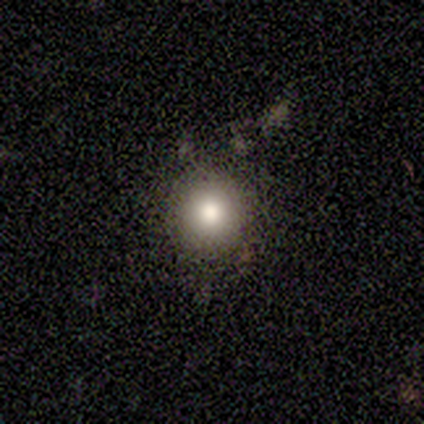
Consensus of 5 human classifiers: smooth-or-featured: smooth: 80% | star or artifact: 20% | featured or disk: 0%
  how-rounded: round: 75% | in between: 25% | cigar-shaped: 0%
  merging: none: 75% | minor disturbance: 25% | major disturbance: 0% | merger: 0%